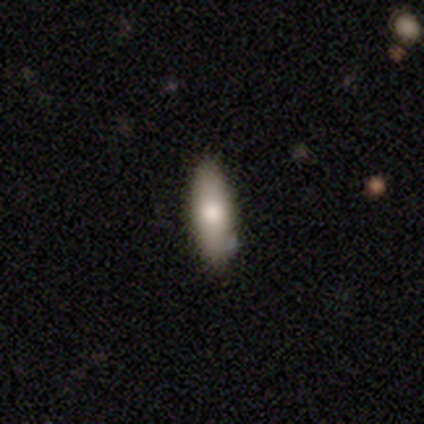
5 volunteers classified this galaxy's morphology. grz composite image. It shows a smooth galaxy with no disk features (100%) that is in between round and cigar-shaped (60%). Merging: none (80%).